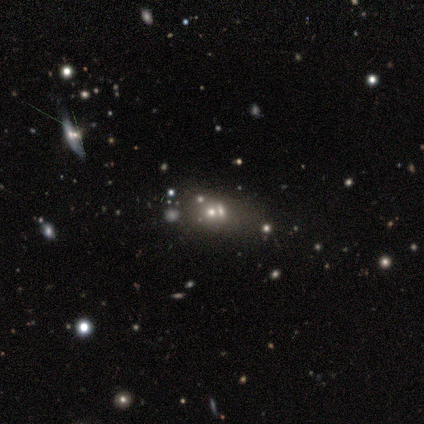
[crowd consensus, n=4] Smooth or featured?
  - smooth: 50% * (tied)
  - star or artifact: 50% * (tied)
  - featured or disk: 0%
How rounded?
  - in between: 100% *
  - round: 0%
  - cigar-shaped: 0%
Merging?
  - merger: 100% *
  - none: 0%
  - minor disturbance: 0%
  - major disturbance: 0%